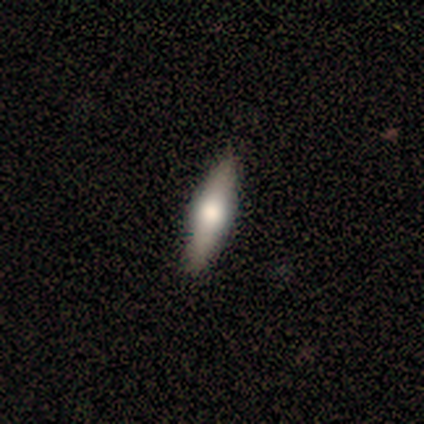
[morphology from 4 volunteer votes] Smooth or featured? featured or disk (75%)
Edge-on disk? yes (100%)
Edge-on bulge? rounded (100%)
Merging? none (100%)